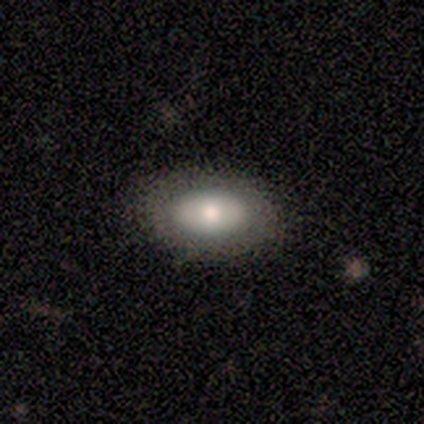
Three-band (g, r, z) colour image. It shows a smooth galaxy with no disk features (50%, tied with featured or disk) that is round (50%, tied with in between). Merging: none (100%).